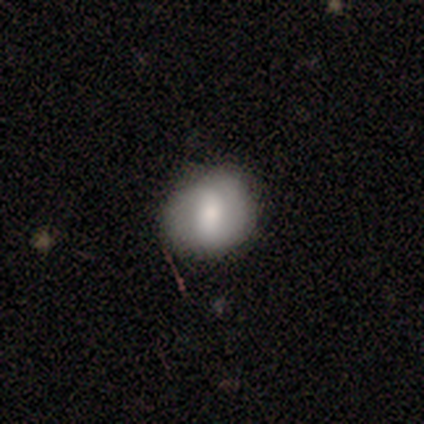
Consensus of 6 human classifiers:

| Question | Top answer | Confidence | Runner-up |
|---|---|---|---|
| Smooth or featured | smooth | 83% | featured or disk (17%) |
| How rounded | round | 60% | in between (40%) |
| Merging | none | 83% | minor disturbance (17%) |